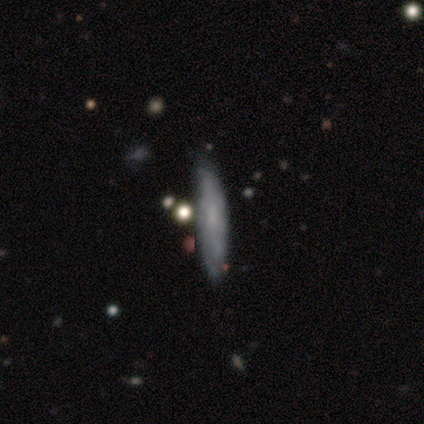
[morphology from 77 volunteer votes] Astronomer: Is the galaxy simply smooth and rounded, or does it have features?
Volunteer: featured or disk — 48% (runner-up: smooth, 47%).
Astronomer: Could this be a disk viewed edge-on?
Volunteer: yes — 54% (runner-up: no, 46%).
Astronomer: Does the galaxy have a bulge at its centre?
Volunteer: none — 90%.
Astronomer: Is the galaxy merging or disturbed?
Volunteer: none — 41%.